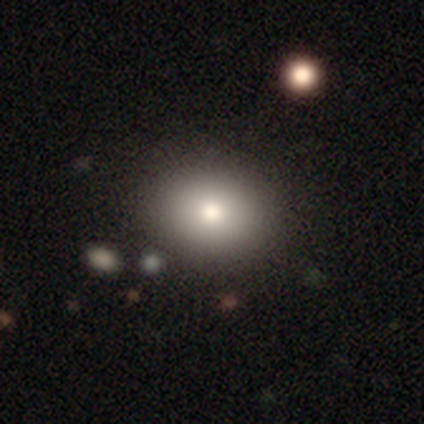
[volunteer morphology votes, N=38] smooth 79%, star or artifact 13%, featured or disk 8%. Down the decision tree: how rounded — in between (57%); merging — none (79%).